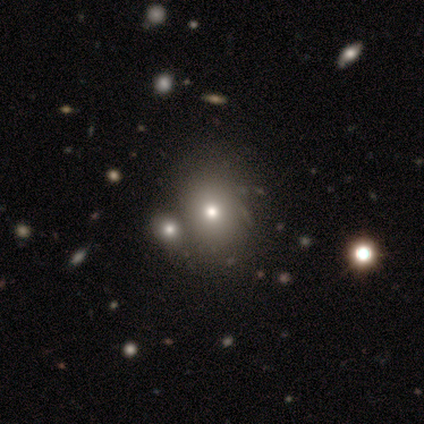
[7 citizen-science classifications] Overall: smooth (57%; featured or disk 29%). How rounded: round (50%, tied with in between). Merging: none (67%; merger 33%).